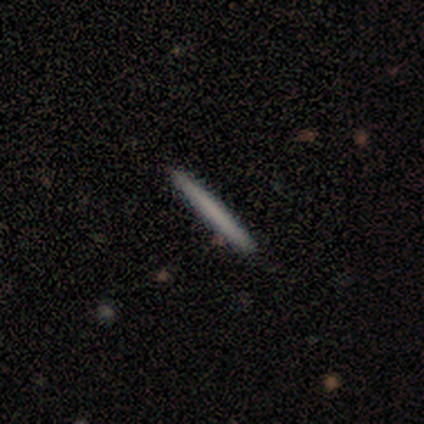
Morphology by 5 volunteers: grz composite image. It shows a featured or disk galaxy (80%) viewed edge-on (100%) with no central bulge (100%). Merging: none (100%).